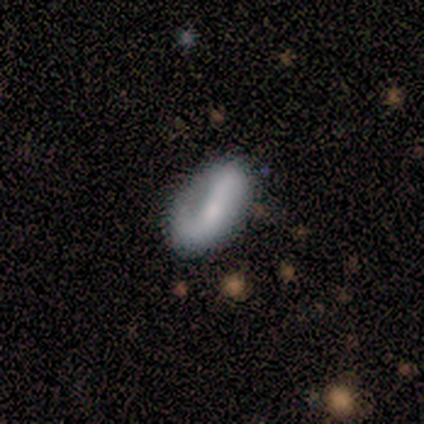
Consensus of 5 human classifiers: A smooth galaxy with no disk features (60%) that is in between round and cigar-shaped (100%). Merging: none (80%).